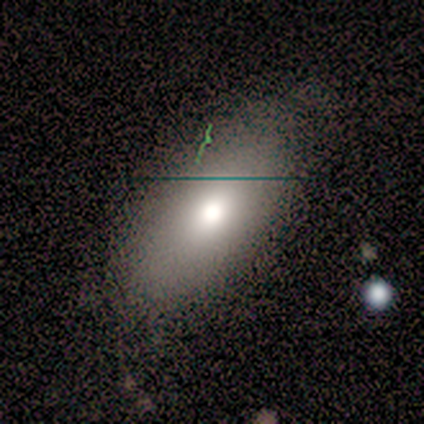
A smooth galaxy with no disk features (50%) that is in between round and cigar-shaped (100%).

Vote fractions:
- Smooth or featured? smooth: 50% / star or artifact: 33% / featured or disk: 17%
- How rounded? in between: 100% / round: 0% / cigar-shaped: 0%
- Merging? none: 100% / minor disturbance: 0% / major disturbance: 0% / merger: 0%